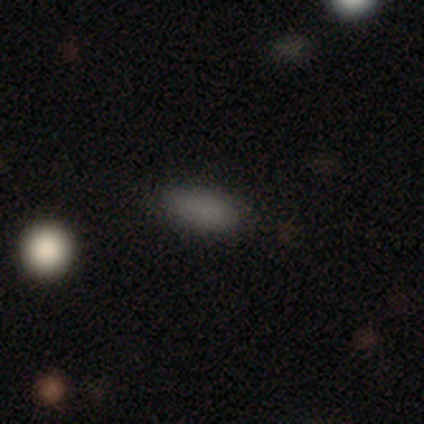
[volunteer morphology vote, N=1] Smooth or featured?
  - smooth: 100% *
  - featured or disk: 0%
  - star or artifact: 0%
How rounded?
  - in between: 100% *
  - round: 0%
  - cigar-shaped: 0%
Merging?
  - none: 100% *
  - minor disturbance: 0%
  - major disturbance: 0%
  - merger: 0%